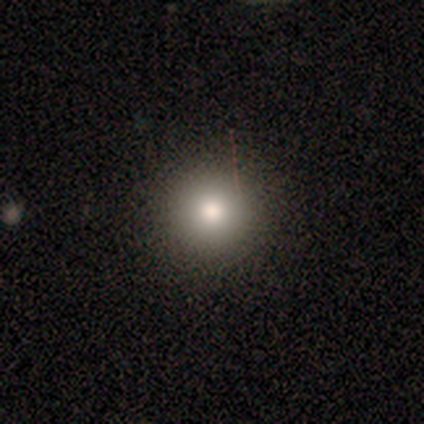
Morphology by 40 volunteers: Smooth or featured: smooth — 78% (star or artifact — 15%)
How rounded: round — 97% (in between — 3%)
Merging: none — 91% (minor disturbance — 9%)